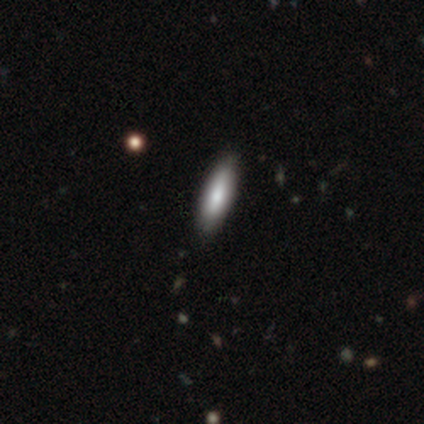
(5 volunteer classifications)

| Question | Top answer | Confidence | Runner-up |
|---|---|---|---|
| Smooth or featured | smooth | 60% | featured or disk (40%) |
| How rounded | cigar-shaped | 67% | in between (33%) |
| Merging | none | 80% | minor disturbance (20%) |